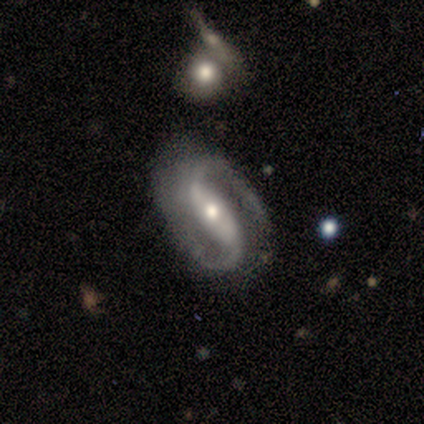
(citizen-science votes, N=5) smooth-or-featured: featured or disk: 100% | smooth: 0% | star or artifact: 0%
  disk-edge-on: no: 100% | yes: 0%
    bar: strong: 60% | weak: 20% | no: 20%
    has-spiral-arms: yes: 100% | no: 0%
      spiral-winding: loose: 60% | medium: 40% | tight: 0%
      spiral-arm-count: 2: 100% | 1: 0% | 3: 0% | 4: 0% | more than 4: 0% | can't tell: 0%
    bulge-size: small: 60% | moderate: 40% | dominant: 0% | large: 0% | none: 0%
  merging: none: 80% | minor disturbance: 20% | major disturbance: 0% | merger: 0%